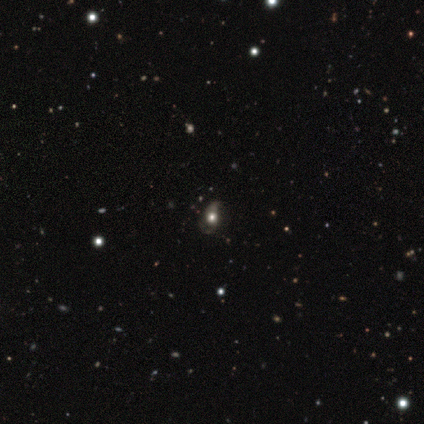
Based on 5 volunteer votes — smooth-or-featured: smooth: 80% | featured or disk: 20% | star or artifact: 0%
  how-rounded: round: 50% (tied) | in between: 50% (tied) | cigar-shaped: 0%
  merging: minor disturbance: 80% | none: 20% | major disturbance: 0% | merger: 0%